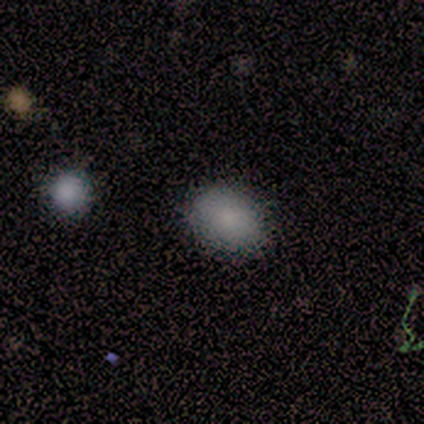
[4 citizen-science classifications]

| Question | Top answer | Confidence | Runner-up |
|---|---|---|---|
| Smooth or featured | smooth | 75% | star or artifact (25%) |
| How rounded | in between | 100% | — |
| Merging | none | 100% | — |